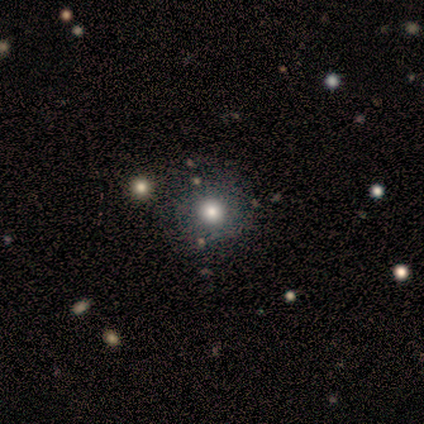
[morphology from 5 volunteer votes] Smooth or featured? smooth (80%)
How rounded? round (100%)
Merging? none (75%)